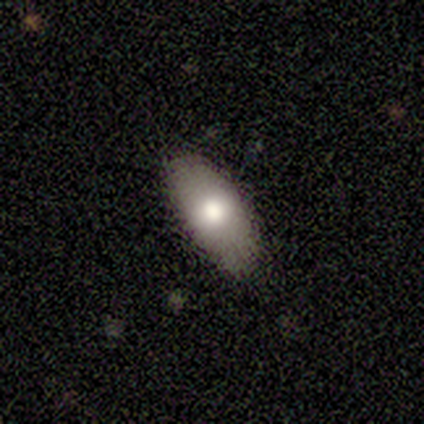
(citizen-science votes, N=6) This is clearly a smooth galaxy (100%). How rounded: clearly in between (100%). Merging: clearly none (83%).